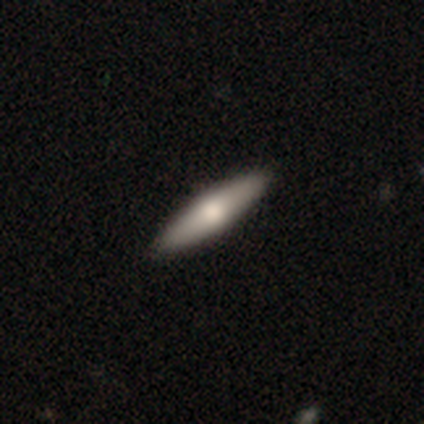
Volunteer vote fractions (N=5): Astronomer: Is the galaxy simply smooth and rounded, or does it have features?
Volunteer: featured or disk — 80%.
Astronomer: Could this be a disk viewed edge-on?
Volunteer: yes — 50%, tied with no at 50%.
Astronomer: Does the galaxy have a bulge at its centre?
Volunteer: rounded — 100%.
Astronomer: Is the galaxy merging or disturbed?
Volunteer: none — 100%.